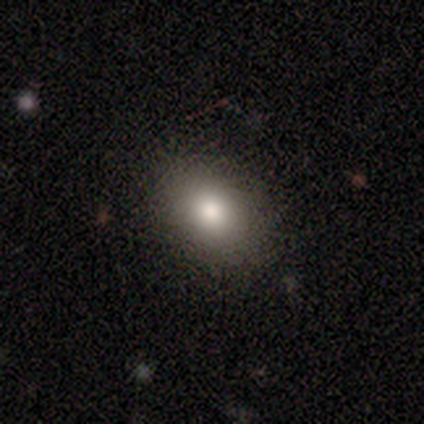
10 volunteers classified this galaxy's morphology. This is clearly a smooth galaxy (80%). How rounded: clearly in between (88%). Merging: clearly none (100%).